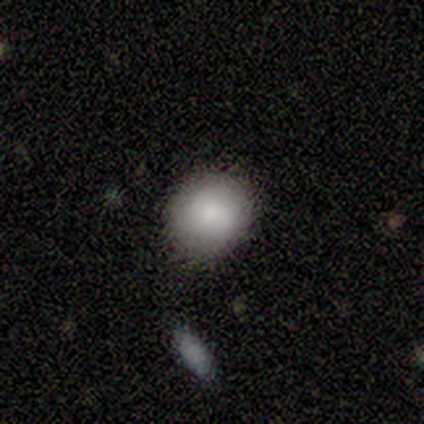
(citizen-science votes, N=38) smooth_or_featured: smooth (p=0.76) [alt: featured or disk p=0.21]
how_rounded: round (p=0.83) [alt: in between p=0.17]
merging: none (p=0.76) [alt: minor disturbance p=0.19]